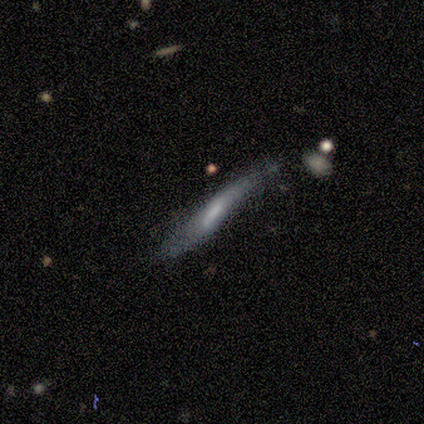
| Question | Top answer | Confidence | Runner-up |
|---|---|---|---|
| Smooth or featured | smooth | 100% | — |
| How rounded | cigar-shaped | 100% | — |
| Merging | none | 60% | minor disturbance (40%) |